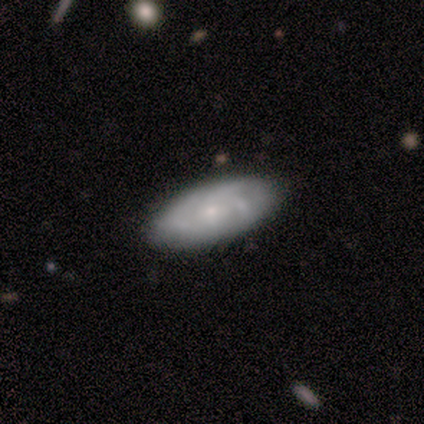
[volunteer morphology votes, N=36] Smooth or featured: featured or disk — 56% (smooth — 39%)
Edge-on disk: no — 95% (yes — 5%)
Bar: no — 89% (weak — 11%)
Spiral arms: yes — 79% (no — 21%)
Spiral winding: tight — 53% (medium — 40%)
Spiral arm count: can't tell — 47% (3 — 27%)
Bulge size: small — 74% (moderate — 16%)
Merging: none — 94% (minor disturbance — 3%)